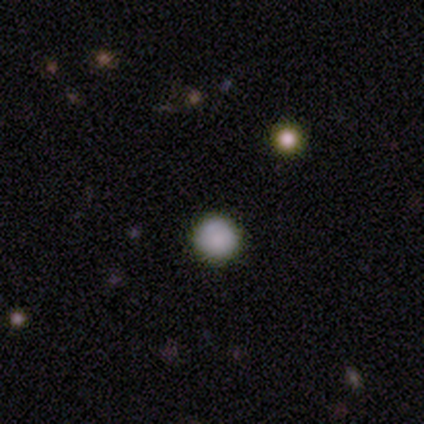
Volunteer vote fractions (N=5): A smooth galaxy with no disk features (100%) that is round (100%). Merging: none (100%).